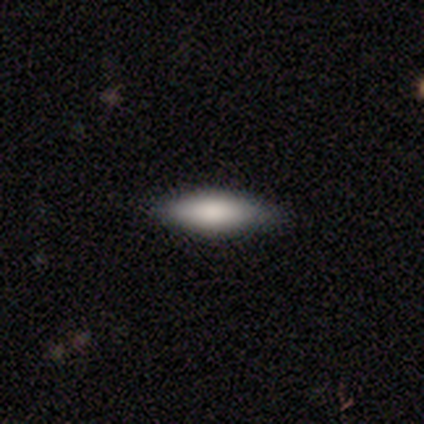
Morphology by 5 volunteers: Smooth or featured?
  - smooth: 80% *
  - star or artifact: 20%
  - featured or disk: 0%
How rounded?
  - cigar-shaped: 75% *
  - in between: 25%
  - round: 0%
Merging?
  - none: 75% *
  - minor disturbance: 25%
  - major disturbance: 0%
  - merger: 0%